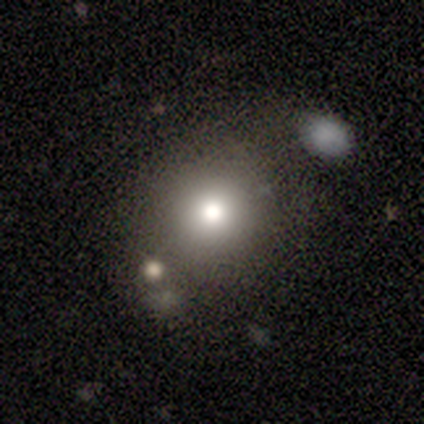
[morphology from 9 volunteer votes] This is likely a smooth galaxy (78%). How rounded: clearly round (86%). Merging: possibly none (50%).